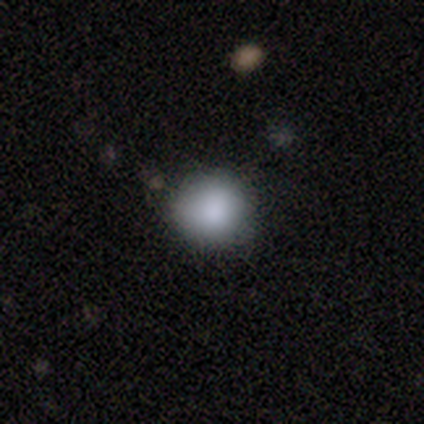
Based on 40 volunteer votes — A smooth galaxy with no disk features (85%) that is round (97%).

Vote fractions:
- Smooth or featured? smooth: 85% / star or artifact: 10% / featured or disk: 5%
- How rounded? round: 97% / in between: 3% / cigar-shaped: 0%
- Merging? none: 64% / minor disturbance: 8% / major disturbance: 0% / merger: 0%